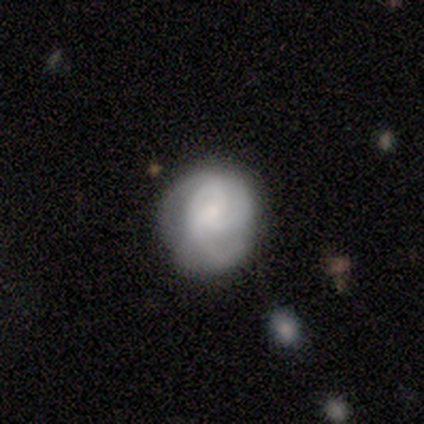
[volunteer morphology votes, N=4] type=smooth (75%); roundness=round (67%); merging=major disturbance (50%).